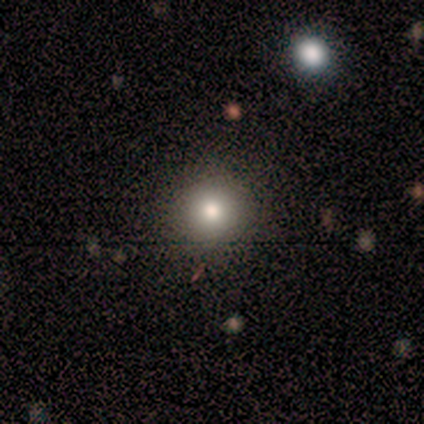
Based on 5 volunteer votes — smooth-or-featured: smooth: 80% | featured or disk: 20% | star or artifact: 0%
  how-rounded: round: 100% | in between: 0% | cigar-shaped: 0%
  merging: none: 80% | minor disturbance: 20% | major disturbance: 0% | merger: 0%